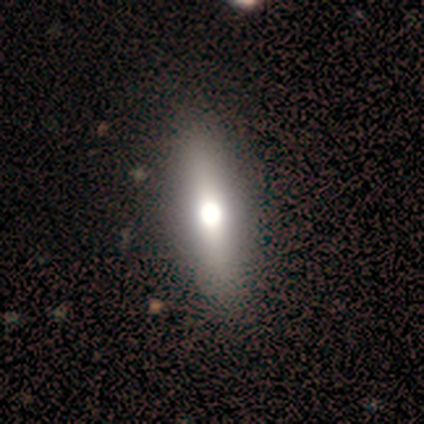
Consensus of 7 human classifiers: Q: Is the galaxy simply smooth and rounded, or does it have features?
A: smooth — 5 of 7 (71%).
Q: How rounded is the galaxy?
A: cigar-shaped — 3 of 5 (60%).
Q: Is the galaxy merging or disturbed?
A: none — 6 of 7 (86%).